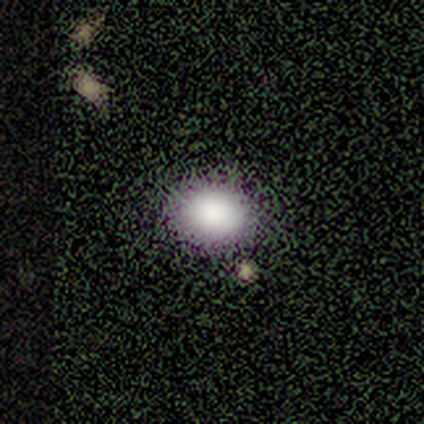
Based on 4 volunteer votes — Morphology: type=smooth (75%); roundness=in between (67%); merging=none (50%, tied with minor disturbance).